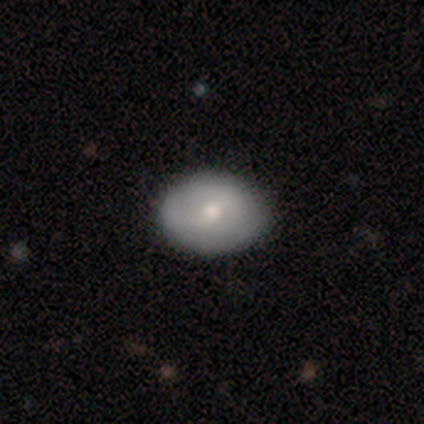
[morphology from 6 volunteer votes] Smooth or featured? 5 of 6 (83%) said smooth. How rounded? 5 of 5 (100%) said in between. Merging? 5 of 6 (83%) said none.